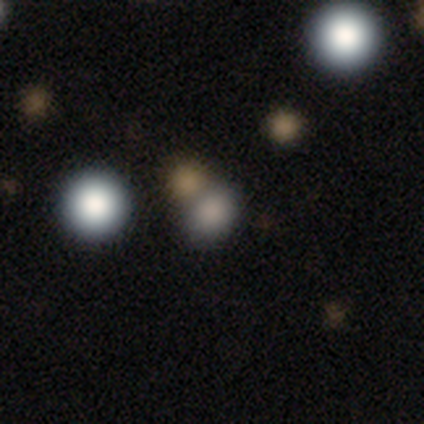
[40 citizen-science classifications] smooth-or-featured: smooth: 70% | star or artifact: 22% | featured or disk: 8%
  how-rounded: round: 64% | in between: 36% | cigar-shaped: 0%
  merging: none: 71% | merger: 23% | minor disturbance: 3% | major disturbance: 3%